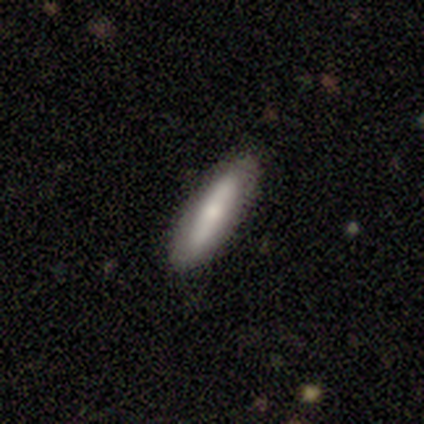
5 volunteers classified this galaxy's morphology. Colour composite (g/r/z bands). It shows a smooth galaxy with no disk features (80%) that is cigar-shaped (100%). Merging: none (60%).